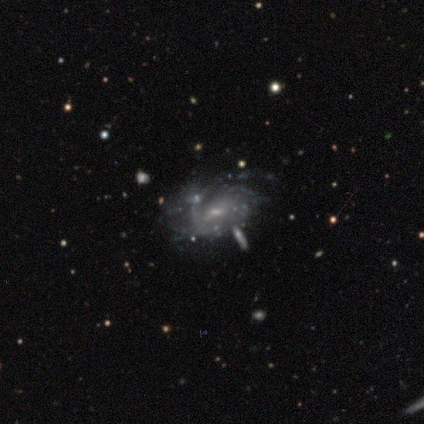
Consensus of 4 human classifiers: This appears to be a featured or disk galaxy (100%) with a weak bar (75%), tight (100%) spiral arms (100%) and a small central bulge (75%). Merging: none (50%).